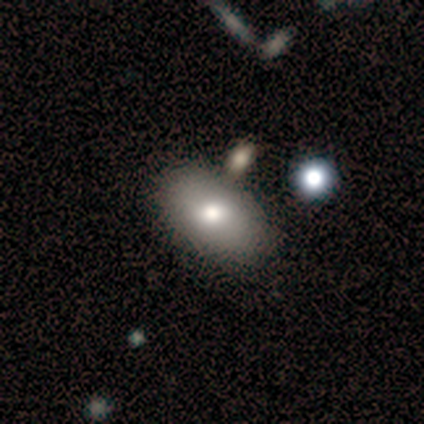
smooth 80%, featured or disk 20%, star or artifact 0%. Down the decision tree: how rounded — in between (75%); merging — none (80%).